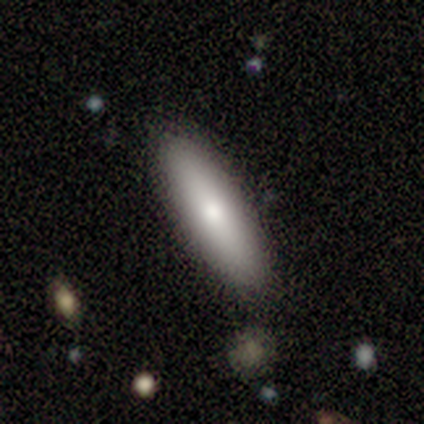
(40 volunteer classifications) smooth 80%, featured or disk 20%, star or artifact 0%. Down the decision tree: how rounded — in between (50%, tied with cigar-shaped); merging — none (72%).